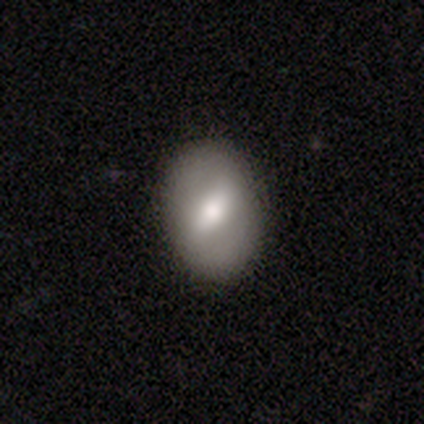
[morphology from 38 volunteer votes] A smooth galaxy with no disk features (50%) that is in between round and cigar-shaped (84%).

Vote fractions:
- Smooth or featured? smooth: 50% / featured or disk: 47% / star or artifact: 3%
- How rounded? in between: 84% / round: 16% / cigar-shaped: 0%
- Merging? none: 92% / minor disturbance: 8% / major disturbance: 0% / merger: 0%